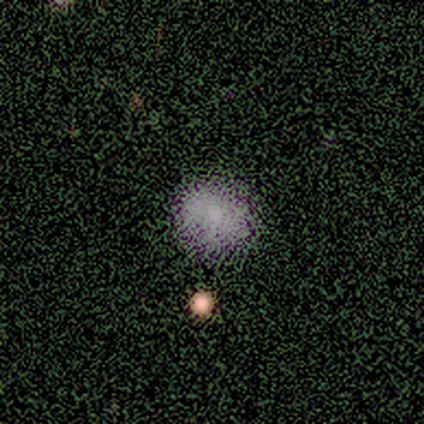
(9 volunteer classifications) Morphology: type=smooth (78%); roundness=round (100%); merging=none (88%).